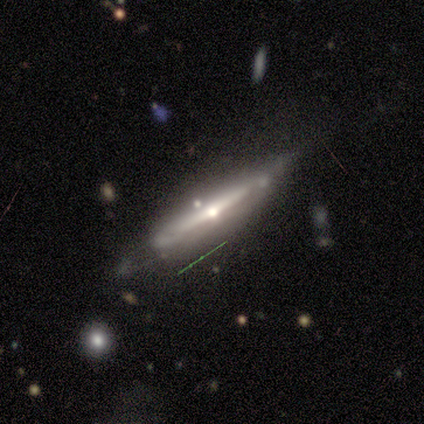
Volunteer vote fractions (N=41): Overall: featured or disk (88%). Edge-on disk: yes (78%). Edge-on bulge: rounded (86%). Merging: none (48%; minor disturbance 38%).